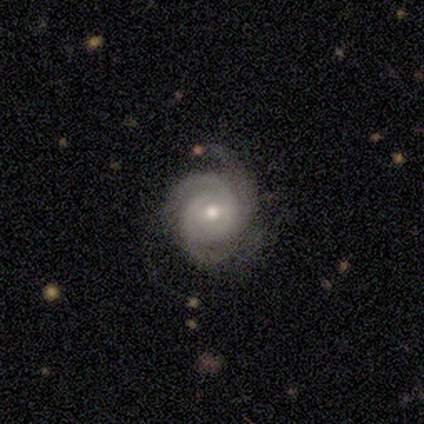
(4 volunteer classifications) Smooth or featured? featured or disk (75%)
Edge-on disk? no (100%)
Bar? weak (67%)
Spiral arms? yes (100%)
Spiral winding? tight (67%)
Spiral arm count? 3 (100%)
Bulge size? moderate (67%)
Merging? minor disturbance (75%)